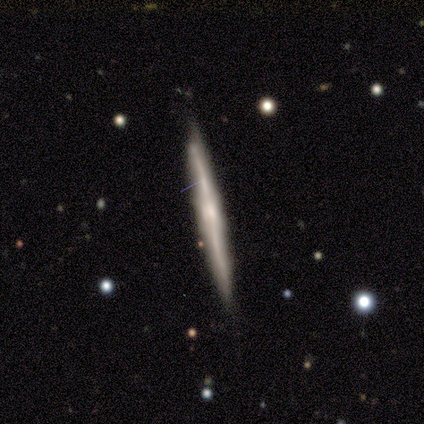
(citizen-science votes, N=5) smooth-or-featured: featured or disk: 80% | smooth: 20% | star or artifact: 0%
  disk-edge-on: yes: 100% | no: 0%
    edge-on-bulge: none: 50% | boxy: 25% | rounded: 25%
  merging: none: 100% | minor disturbance: 0% | major disturbance: 0% | merger: 0%